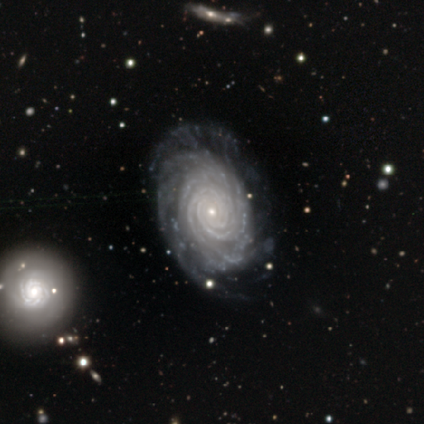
Q: Smooth or featured?
A: featured or disk (88%); runner-up: star or artifact (9%)
Q: Edge-on disk?
A: no (92%); runner-up: yes (8%)
Q: Bar?
A: no (72%); runner-up: weak (16%)
Q: Spiral arms?
A: yes (96%); runner-up: no (4%)
Q: Spiral winding?
A: tight (91%); runner-up: medium (8%)
Q: Spiral arm count?
A: more than 4 (36%); runner-up: 4 (25%)
Q: Bulge size?
A: small (85%); runner-up: moderate (14%)
Q: Merging?
A: none (65%); runner-up: minor disturbance (15%)